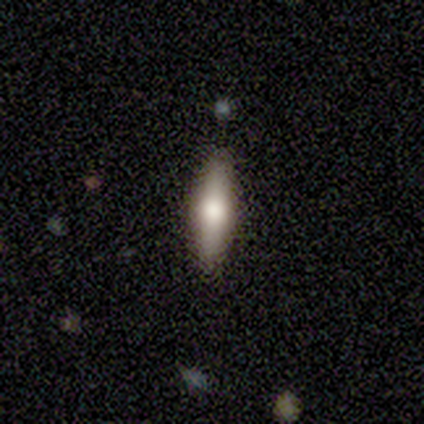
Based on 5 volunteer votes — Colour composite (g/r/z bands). It shows a featured or disk galaxy (60%) viewed edge-on (100%) with a rounded central bulge (100%). Merging: none (80%).